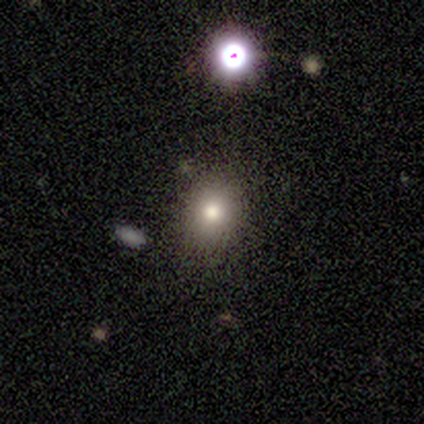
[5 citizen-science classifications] star or artifact 60%, smooth 40%, featured or disk 0%.